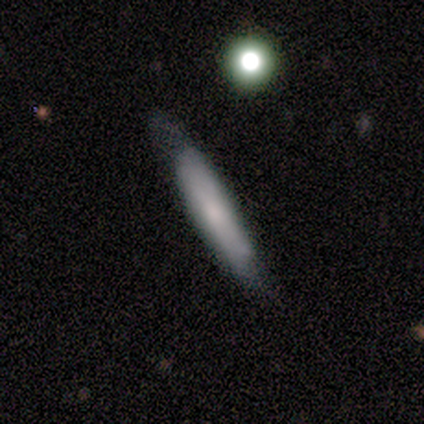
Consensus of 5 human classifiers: A smooth galaxy with no disk features (60%) that is cigar-shaped (67%).

Vote fractions:
- Smooth or featured? smooth: 60% / featured or disk: 40% / star or artifact: 0%
- How rounded? cigar-shaped: 67% / in between: 33% / round: 0%
- Merging? none: 80% / major disturbance: 20% / minor disturbance: 0% / merger: 0%